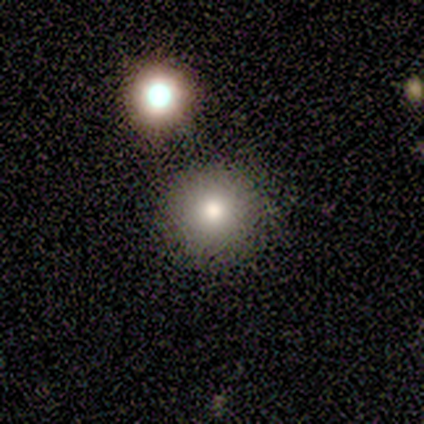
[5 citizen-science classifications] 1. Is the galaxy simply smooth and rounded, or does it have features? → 100% smooth, 0% featured or disk, 0% star or artifact.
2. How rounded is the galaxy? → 100% round, 0% in between, 0% cigar-shaped.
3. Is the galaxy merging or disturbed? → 80% none, 20% minor disturbance, 0% major disturbance, 0% merger.